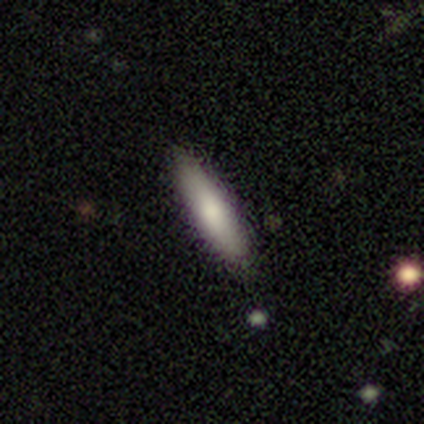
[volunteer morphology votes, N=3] Smooth or featured?
  - smooth: 100% *
  - featured or disk: 0%
  - star or artifact: 0%
How rounded?
  - cigar-shaped: 67% *
  - in between: 33%
  - round: 0%
Merging?
  - none: 67% *
  - minor disturbance: 33%
  - major disturbance: 0%
  - merger: 0%